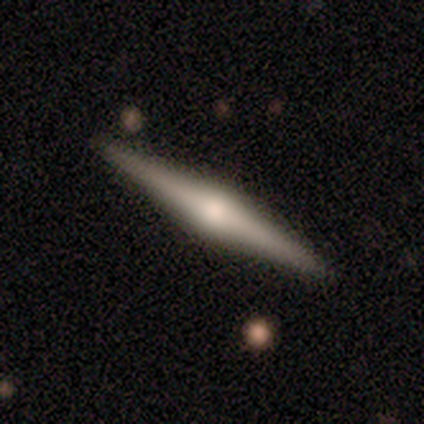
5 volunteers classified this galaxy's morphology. Smooth or featured: featured or disk — 100%
Edge-on disk: yes — 100%
Edge-on bulge: rounded — 60% (boxy — 20%)
Merging: none — 100%